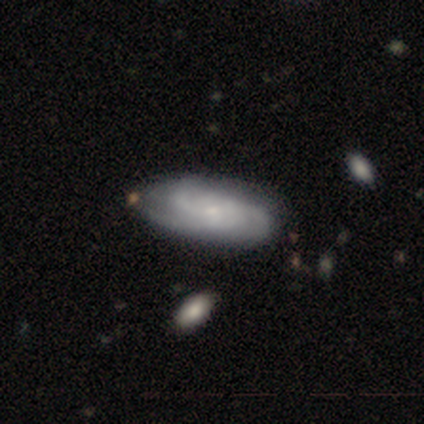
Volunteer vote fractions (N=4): Q: Smooth or featured?
A: featured or disk (75%); runner-up: smooth (25%)
Q: Edge-on disk?
A: no (100%)
Q: Bar?
A: no (100%)
Q: Spiral arms?
A: yes (100%)
Q: Spiral winding?
A: tight (67%); runner-up: medium (33%)
Q: Spiral arm count?
A: 3 (100%)
Q: Bulge size?
A: small (67%); runner-up: none (33%)
Q: Merging?
A: none (75%); runner-up: minor disturbance (25%)